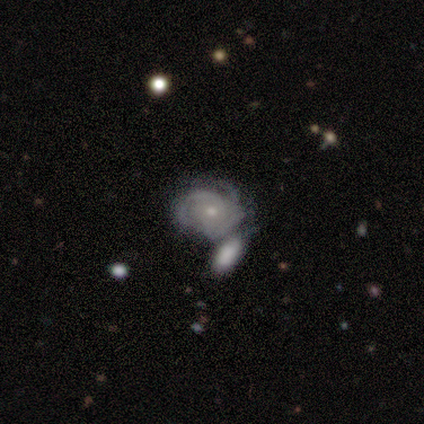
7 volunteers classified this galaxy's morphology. Smooth or featured? featured or disk (86%)
Edge-on disk? no (100%)
Bar? no (67%)
Spiral arms? yes (100%)
Spiral winding? tight (83%)
Spiral arm count? 2 (50%, tied with can't tell)
Bulge size? small (100%)
Merging? merger (50%)